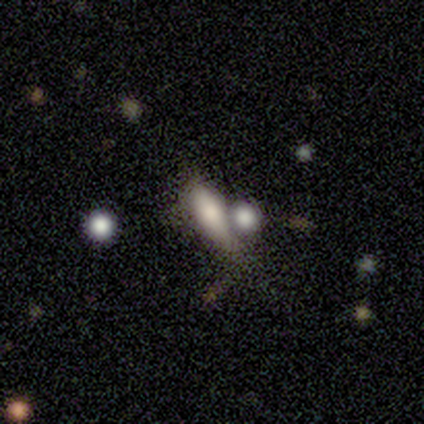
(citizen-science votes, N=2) Volunteers were most divided on "smooth or featured" (2-way tie): smooth: 50%, star or artifact: 50%, featured or disk: 0%. More confident: how rounded — cigar-shaped (100%); merging — major disturbance (100%).